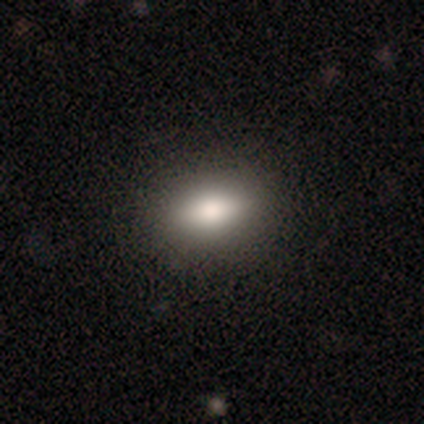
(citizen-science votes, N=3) Smooth or featured? 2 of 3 (67%) said smooth. How rounded? 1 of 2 (50%, tied with in between) said round. Merging? 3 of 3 (100%) said none.